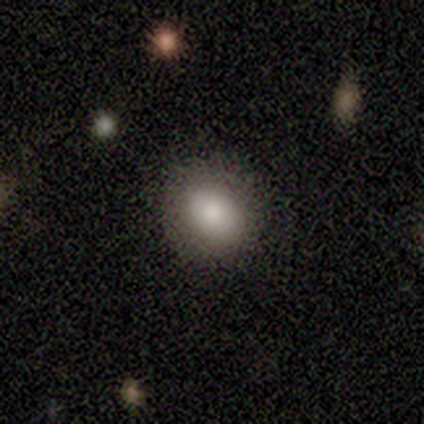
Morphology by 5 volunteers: This is clearly a smooth galaxy (80%). How rounded: likely in between (75%). Merging: clearly none (100%).